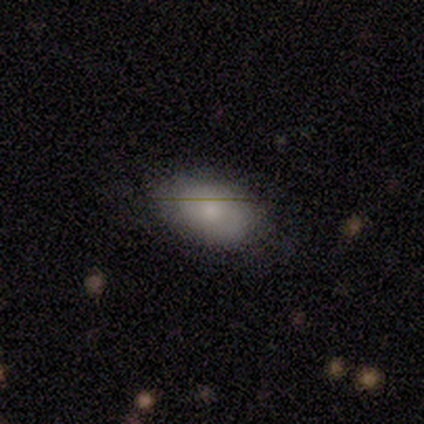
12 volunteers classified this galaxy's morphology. Overall: smooth (67%; featured or disk 33%). How rounded: in between (100%). Merging: none (83%).